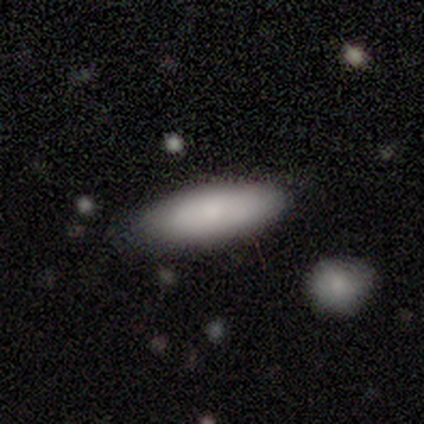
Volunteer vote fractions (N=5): This is likely a smooth galaxy (60%). How rounded: likely in between (67%). Merging: clearly none (80%).